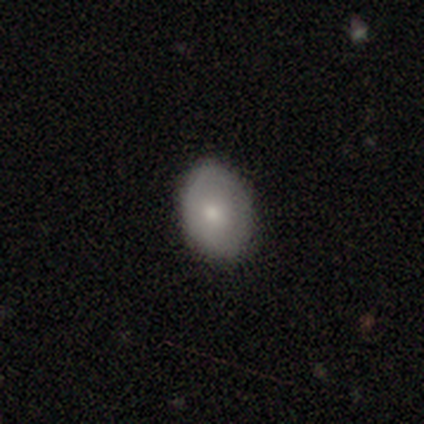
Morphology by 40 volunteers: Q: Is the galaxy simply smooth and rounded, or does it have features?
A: smooth — 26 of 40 (65%).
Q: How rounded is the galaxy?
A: in between — 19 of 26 (73%).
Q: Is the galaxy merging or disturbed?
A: none — 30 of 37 (81%).